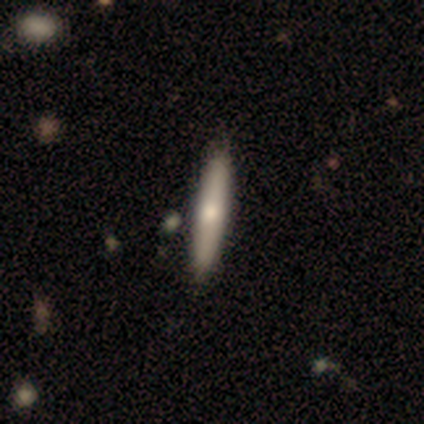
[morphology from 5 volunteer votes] Q: Smooth or featured?
A: featured or disk (60%); runner-up: smooth (40%)
Q: Edge-on disk?
A: yes (100%)
Q: Edge-on bulge?
A: rounded (100%)
Q: Merging?
A: none (80%); runner-up: minor disturbance (20%)